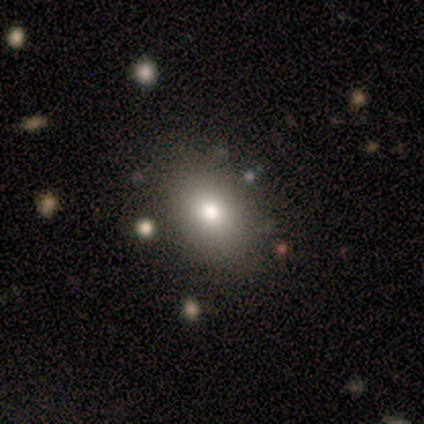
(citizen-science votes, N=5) Smooth or featured?
  - smooth: 80% *
  - star or artifact: 20%
  - featured or disk: 0%
How rounded?
  - in between: 75% *
  - round: 25%
  - cigar-shaped: 0%
Merging?
  - none: 100% *
  - minor disturbance: 0%
  - major disturbance: 0%
  - merger: 0%